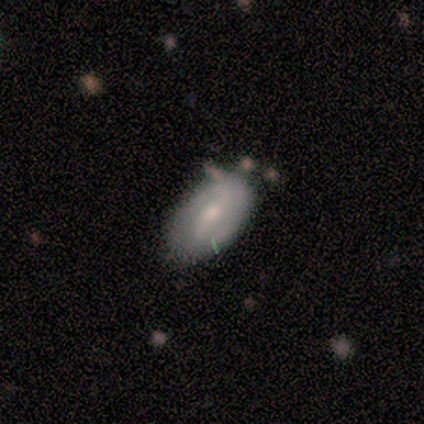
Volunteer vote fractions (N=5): Smooth or featured?
  - featured or disk: 60% *
  - smooth: 40%
  - star or artifact: 0%
Edge-on disk?
  - no: 100% *
  - yes: 0%
Bar?
  - weak: 100% *
  - strong: 0%
  - no: 0%
Spiral arms?
  - yes: 100% *
  - no: 0%
Spiral winding?
  - tight: 67% *
  - loose: 33%
  - medium: 0%
Spiral arm count?
  - 2: 67% *
  - can't tell: 33%
  - 1: 0%
  - 3: 0%
  - 4: 0%
  - more than 4: 0%
Bulge size?
  - small: 67% *
  - moderate: 33%
  - dominant: 0%
  - large: 0%
  - none: 0%
Merging?
  - none: 100% *
  - minor disturbance: 0%
  - major disturbance: 0%
  - merger: 0%